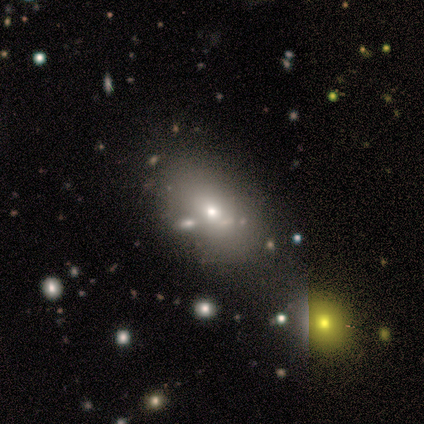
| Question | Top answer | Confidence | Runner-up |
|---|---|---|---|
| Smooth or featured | smooth | 75% | featured or disk (25%) |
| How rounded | in between | 67% | cigar-shaped (22%) |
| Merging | none | 42% | minor disturbance (25%) |